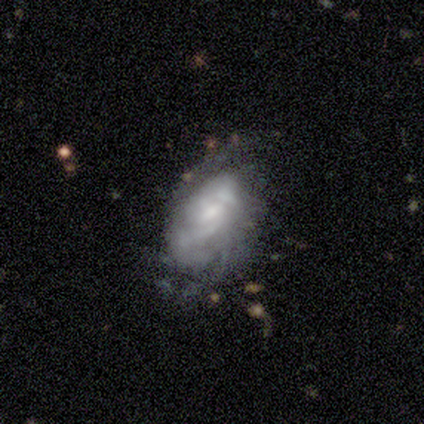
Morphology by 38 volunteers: A featured or disk galaxy (84%) with no bar (77%), 2 (38%) tight (42%) spiral arms (77%) and a small central bulge (65%).

Vote fractions:
- Smooth or featured? featured or disk: 84% / smooth: 11% / star or artifact: 5%
- Edge-on disk? no: 97% / yes: 3%
- Bar? no: 77% / weak: 23% / strong: 0%
- Spiral arms? yes: 77% / no: 23%
- Spiral winding? tight: 42% / medium: 38% / loose: 21%
- Spiral arm count? 2: 38% / can't tell: 29% / 3: 17% / 1: 8% / more than 4: 8% / 4: 0%
- Bulge size? small: 65% / moderate: 23% / none: 13% / dominant: 0% / large: 0%
- Merging? none: 61% / minor disturbance: 19% / major disturbance: 17% / merger: 3%